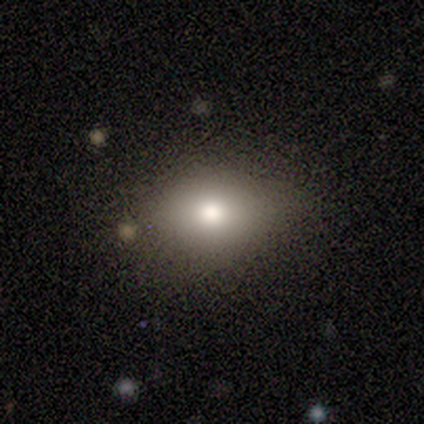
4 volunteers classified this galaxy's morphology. smooth-or-featured: smooth: 75% | featured or disk: 25% | star or artifact: 0%
  how-rounded: in between: 100% | round: 0% | cigar-shaped: 0%
  merging: none: 75% | minor disturbance: 25% | major disturbance: 0% | merger: 0%